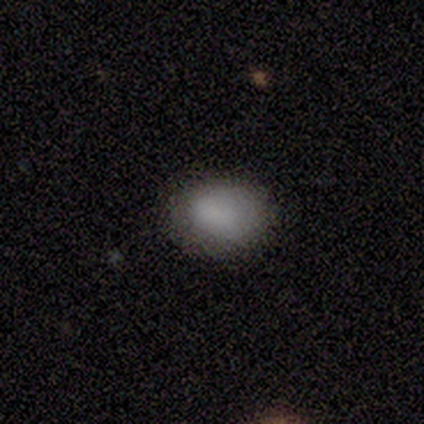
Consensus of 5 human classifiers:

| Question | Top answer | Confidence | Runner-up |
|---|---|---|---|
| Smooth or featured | smooth | 60% | featured or disk (20%) |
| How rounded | in between | 100% | — |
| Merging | none | 50% | tied: minor disturbance (50%) |